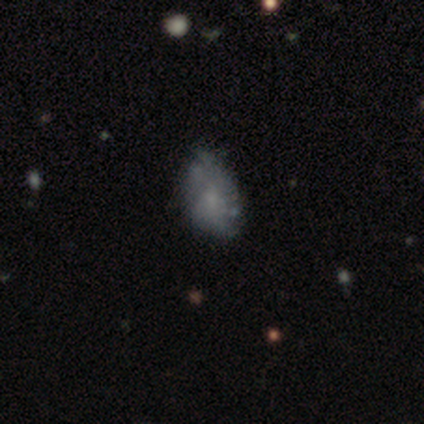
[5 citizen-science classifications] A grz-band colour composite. It shows a featured or disk galaxy (60%) with no bar (67%), no spiral arms (67%) and a small central bulge (67%). Merging: minor disturbance (80%).